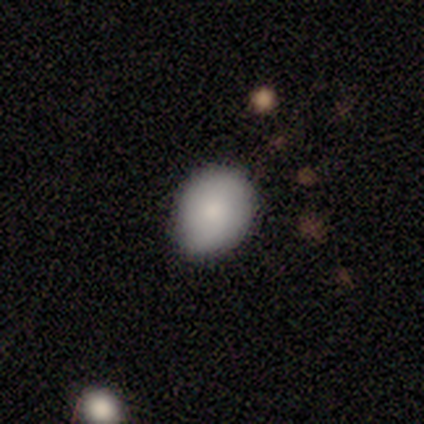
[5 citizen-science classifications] This appears to be a smooth galaxy with no disk features (100%) that is round (60%). Merging: none (60%).